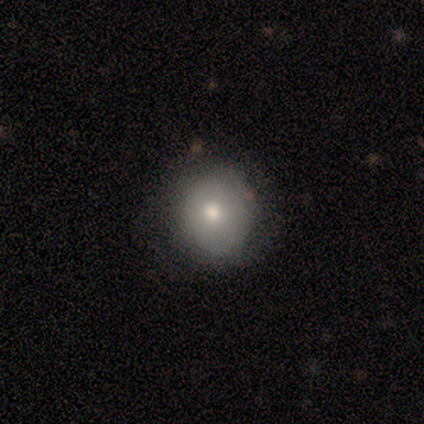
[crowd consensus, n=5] smooth_or_featured: smooth (p=0.60) [alt: featured or disk p=0.20]
how_rounded: round (p=1.00)
merging: none (p=1.00)